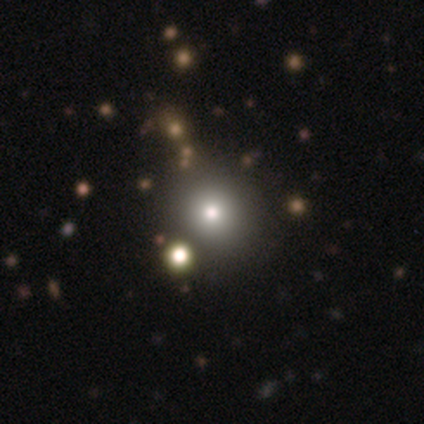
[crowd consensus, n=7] Smooth or featured: smooth — 43% (tied with star or artifact — 43%)
How rounded: round — 100%
Merging: none — 50% (tied with merger — 50%)